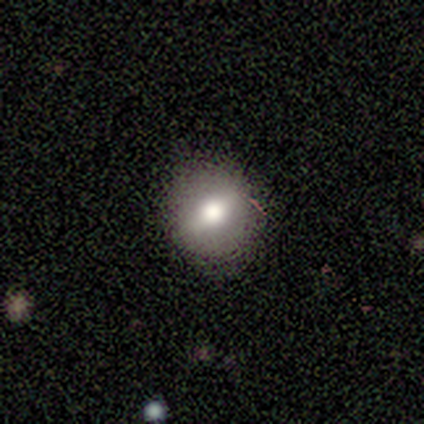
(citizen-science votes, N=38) Overall: smooth (50%; featured or disk 42%). How rounded: round (79%). Merging: none (91%).